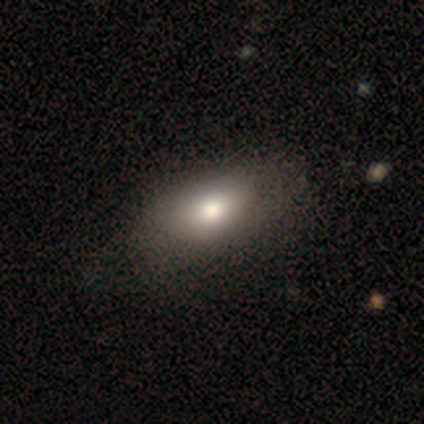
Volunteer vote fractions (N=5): smooth 80%, featured or disk 20%, star or artifact 0%. Down the decision tree: how rounded — in between (50%); merging — none (80%).